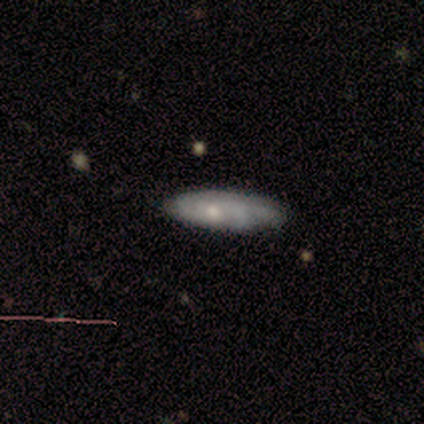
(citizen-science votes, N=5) Volunteers were most divided on "how rounded" (2-way tie): in between: 50%, cigar-shaped: 50%, round: 0%. More confident: smooth or featured — smooth (80%); merging — none (80%).